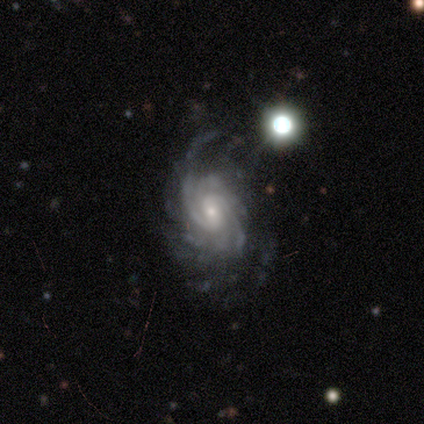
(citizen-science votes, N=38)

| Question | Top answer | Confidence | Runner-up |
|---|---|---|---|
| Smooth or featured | featured or disk | 97% | star or artifact (3%) |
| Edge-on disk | no | 97% | yes (3%) |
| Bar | weak | 44% | no (42%) |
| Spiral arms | yes | 100% | — |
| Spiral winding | tight | 53% | medium (44%) |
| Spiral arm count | can't tell | 28% | 3 (25%) |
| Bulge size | small | 67% | moderate (25%) |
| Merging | none | 54% | minor disturbance (19%) |